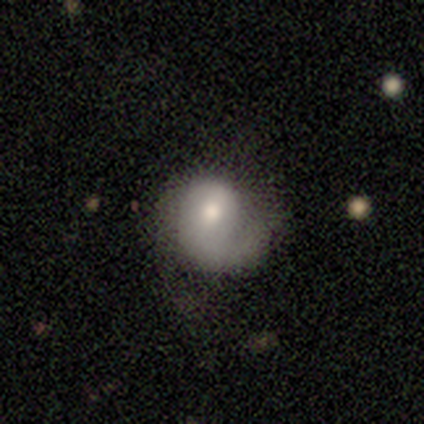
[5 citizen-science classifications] This appears to be a smooth galaxy with no disk features (40%, tied with featured or disk) that is round (50%, tied with in between). Merging: none (50%).